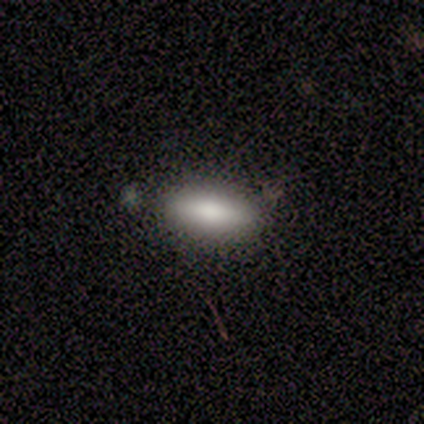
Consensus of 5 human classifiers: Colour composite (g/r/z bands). It shows a smooth galaxy with no disk features (80%) that is in between round and cigar-shaped (100%). Merging: none (100%).